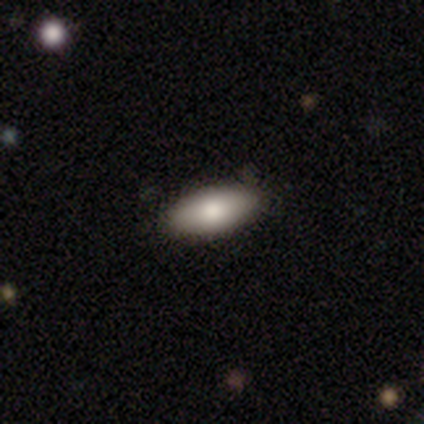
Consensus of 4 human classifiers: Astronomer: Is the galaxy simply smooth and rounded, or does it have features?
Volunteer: smooth — 100%.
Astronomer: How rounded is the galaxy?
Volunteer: in between — 75%.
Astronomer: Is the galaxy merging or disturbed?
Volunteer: none — 75%.